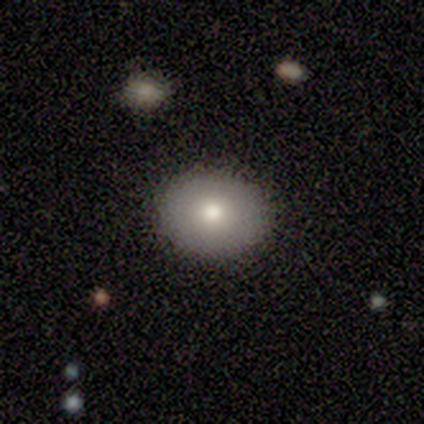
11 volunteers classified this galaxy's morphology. type=smooth (100%); roundness=in between (64%); merging=none (100%).